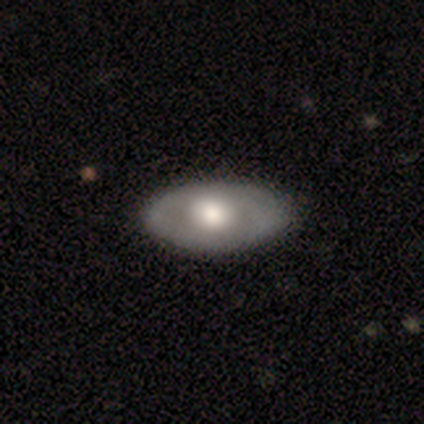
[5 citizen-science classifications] Smooth or featured? 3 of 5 (60%) said smooth. How rounded? 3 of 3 (100%) said in between. Merging? 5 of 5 (100%) said none.